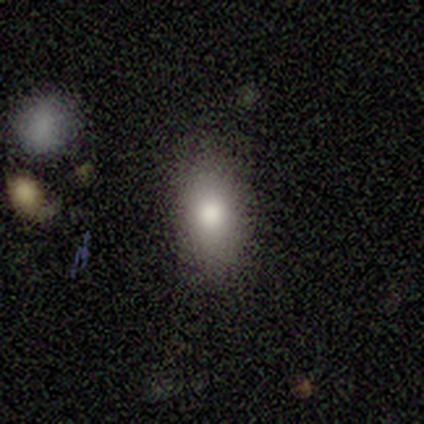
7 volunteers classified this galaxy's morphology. This appears to be a smooth galaxy with no disk features (57%) that is in between round and cigar-shaped (75%). Merging: none (80%).